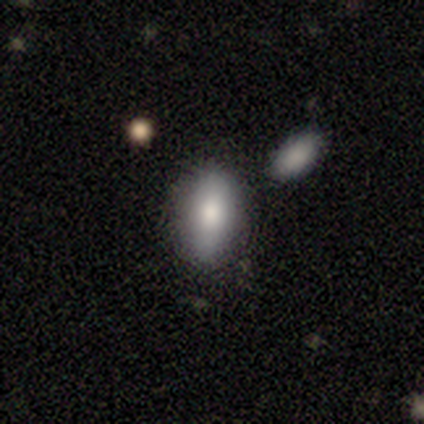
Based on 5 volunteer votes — Volunteers were most divided on "merging": minor disturbance: 60%, none: 40%, major disturbance: 0%, merger: 0%. More confident: smooth or featured — smooth (100%); how rounded — in between (80%).